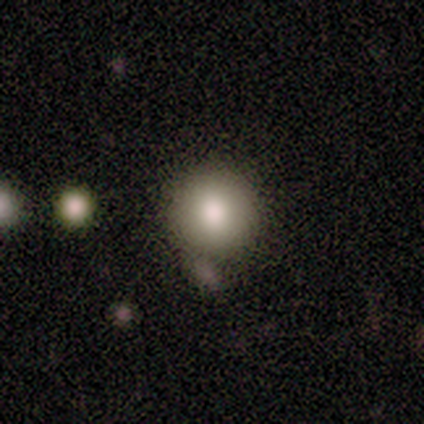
This is likely a smooth galaxy (72%). How rounded: clearly round (86%). Merging: likely none (77%).